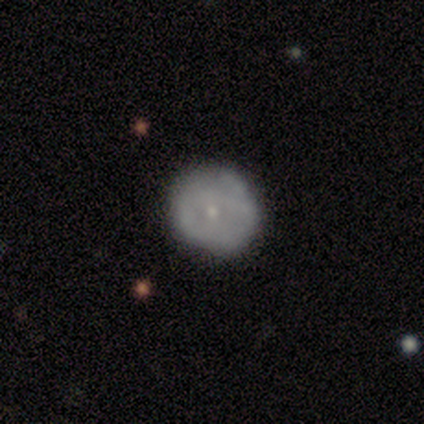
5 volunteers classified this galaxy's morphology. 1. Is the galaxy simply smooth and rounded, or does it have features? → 80% smooth, 20% featured or disk, 0% star or artifact.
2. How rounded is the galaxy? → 100% round, 0% in between, 0% cigar-shaped.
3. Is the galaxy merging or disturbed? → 80% none, 20% minor disturbance, 0% major disturbance, 0% merger.